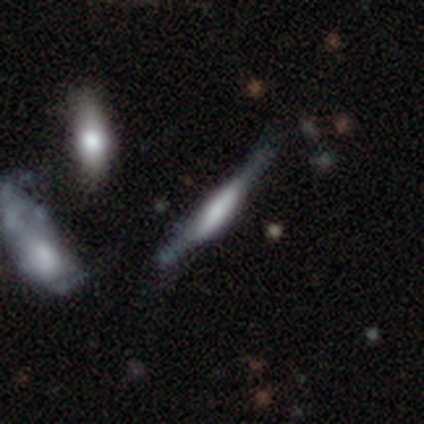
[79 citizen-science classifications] Morphology: type=featured or disk (66%); edge-on=yes (96%); edge-on bulge=boxy (72%); merging=none (27%).